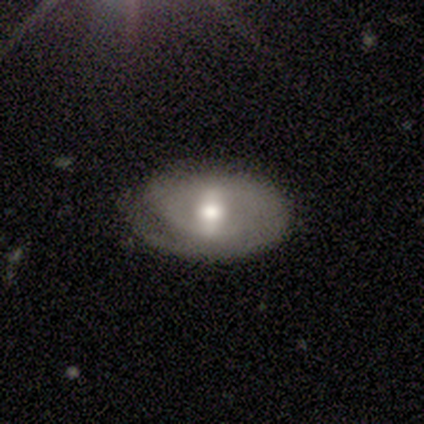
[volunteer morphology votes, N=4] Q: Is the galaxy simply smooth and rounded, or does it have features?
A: featured or disk — 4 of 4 (100%).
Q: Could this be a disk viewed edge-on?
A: no — 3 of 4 (75%).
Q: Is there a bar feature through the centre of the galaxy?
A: weak — 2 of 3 (67%).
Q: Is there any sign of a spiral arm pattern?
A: yes — 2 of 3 (67%).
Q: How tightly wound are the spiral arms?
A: tight — 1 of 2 (50%, tied with loose).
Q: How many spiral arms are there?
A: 1 — 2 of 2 (100%).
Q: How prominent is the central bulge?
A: moderate — 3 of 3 (100%).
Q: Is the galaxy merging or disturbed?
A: none — 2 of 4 (50%).